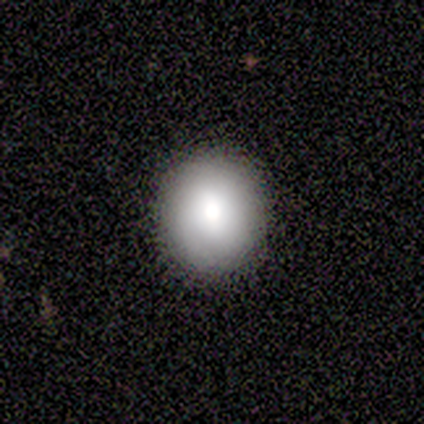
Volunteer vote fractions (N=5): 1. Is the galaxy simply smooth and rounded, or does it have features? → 80% smooth, 20% featured or disk, 0% star or artifact.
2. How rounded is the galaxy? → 75% round, 25% in between, 0% cigar-shaped.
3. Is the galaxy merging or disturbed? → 100% none, 0% minor disturbance, 0% major disturbance, 0% merger.